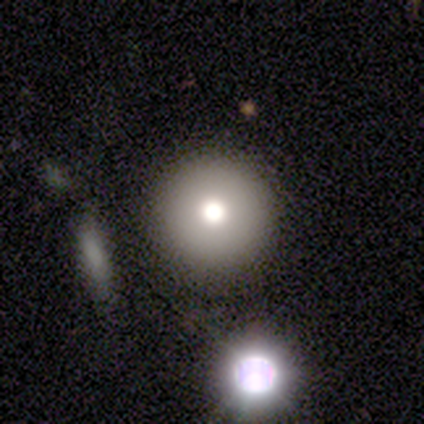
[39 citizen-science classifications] Q: Smooth or featured?
A: smooth (64%); runner-up: star or artifact (21%)
Q: How rounded?
A: round (88%); runner-up: in between (8%)
Q: Merging?
A: none (94%); runner-up: minor disturbance (6%)